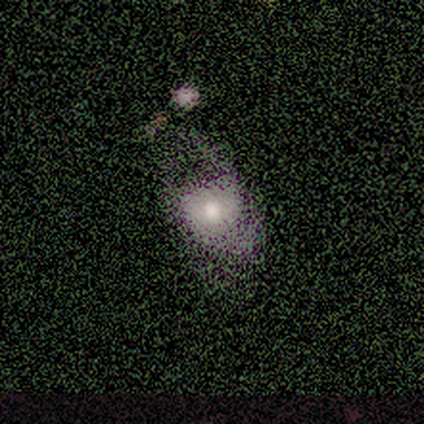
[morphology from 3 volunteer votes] Smooth or featured: featured or disk — 67% (smooth — 33%)
Edge-on disk: yes — 50% (tied with no — 50%)
Edge-on bulge: rounded — 100%
Merging: none — 33% (tied with major disturbance — 33%; merger — 33%)